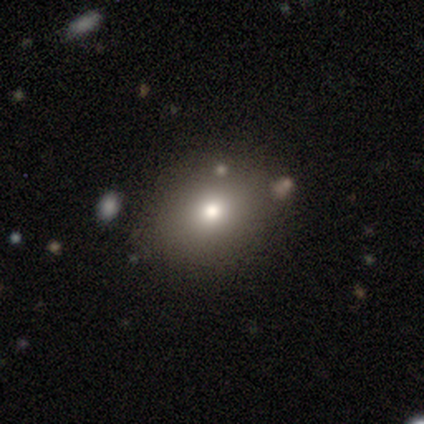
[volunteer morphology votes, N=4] Volunteers were most divided on "how rounded": in between: 75%, round: 25%, cigar-shaped: 0%. More confident: smooth or featured — smooth (100%); merging — none (100%).